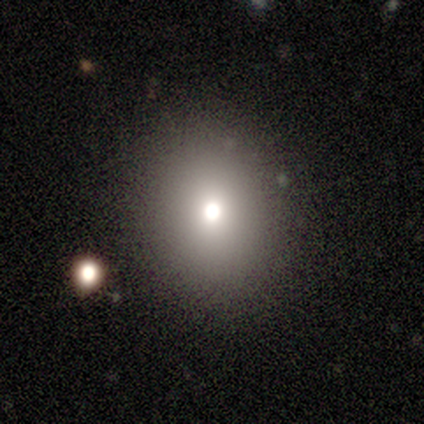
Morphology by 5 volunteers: Smooth or featured? smooth (60%)
How rounded? round (67%)
Merging? none (100%)